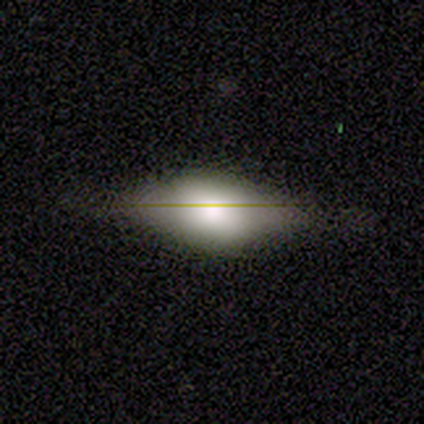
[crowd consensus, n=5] This appears to be a smooth galaxy with no disk features (80%) that is in between round and cigar-shaped (100%). Merging: none (100%).